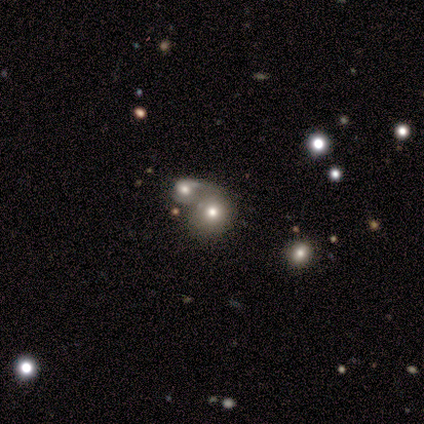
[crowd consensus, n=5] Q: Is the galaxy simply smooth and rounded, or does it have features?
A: smooth — 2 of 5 (40%, tied with star or artifact).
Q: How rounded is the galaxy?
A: round — 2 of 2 (100%).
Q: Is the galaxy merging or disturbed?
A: merger — 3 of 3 (100%).